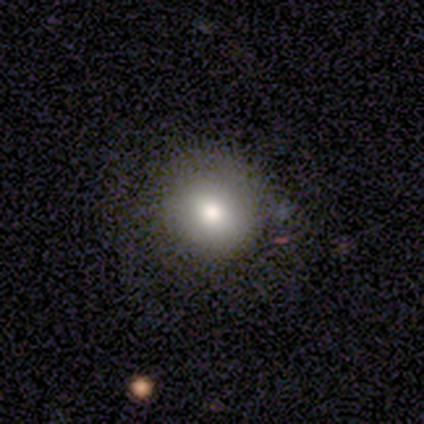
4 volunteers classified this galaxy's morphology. smooth_or_featured: smooth (p=0.75) [alt: star or artifact p=0.25]
how_rounded: round (p=1.00)
merging: minor disturbance (p=0.67) [alt: none p=0.33]